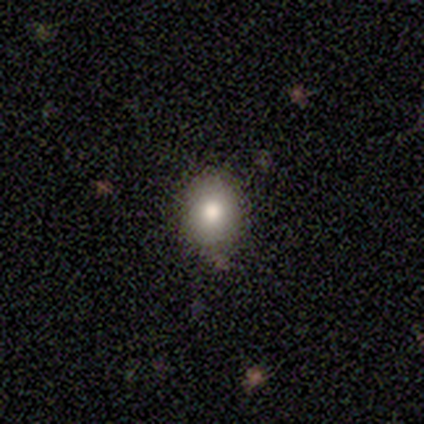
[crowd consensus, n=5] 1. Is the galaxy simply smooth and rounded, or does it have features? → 80% smooth, 20% featured or disk, 0% star or artifact.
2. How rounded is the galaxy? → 50% round (tied), 50% in between (tied), 0% cigar-shaped.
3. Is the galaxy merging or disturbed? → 60% none, 40% minor disturbance, 0% major disturbance, 0% merger.